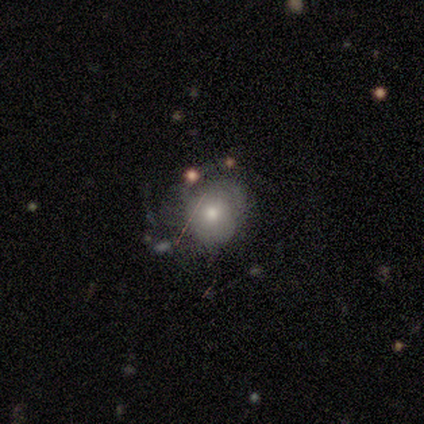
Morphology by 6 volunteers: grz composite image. It shows a featured or disk galaxy (67%) with no bar (100%), 2 (50%) tight (75%) spiral arms (100%) and a moderate central bulge (50%). Merging: none (67%).